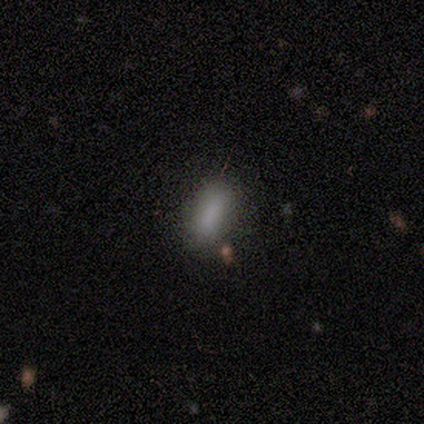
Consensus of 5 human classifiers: Morphology: type=smooth (100%); roundness=in between (60%); merging=none (80%).